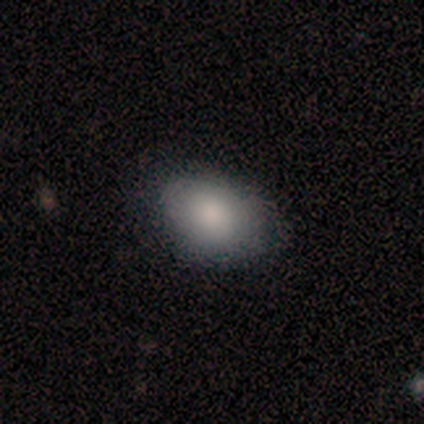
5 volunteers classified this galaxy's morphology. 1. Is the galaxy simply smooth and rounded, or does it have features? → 80% smooth, 20% featured or disk, 0% star or artifact.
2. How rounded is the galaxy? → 50% round (tied), 50% in between (tied), 0% cigar-shaped.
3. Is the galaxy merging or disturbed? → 60% none, 40% minor disturbance, 0% major disturbance, 0% merger.